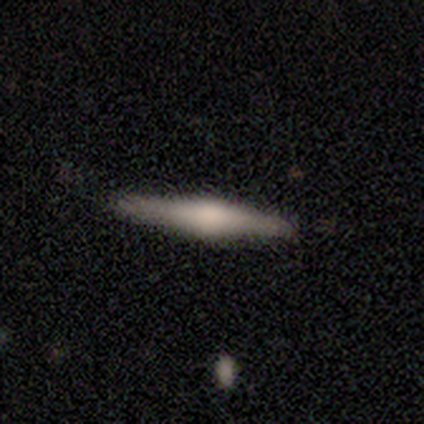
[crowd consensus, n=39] Smooth or featured: featured or disk — 82% (smooth — 15%)
Edge-on disk: yes — 97% (no — 3%)
Edge-on bulge: rounded — 84% (boxy — 10%)
Merging: none — 89% (minor disturbance — 8%)